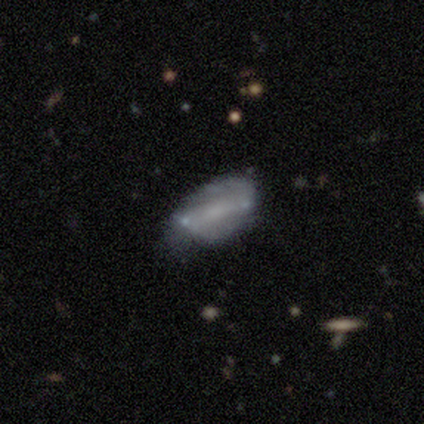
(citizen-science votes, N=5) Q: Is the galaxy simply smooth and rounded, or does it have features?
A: featured or disk — 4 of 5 (80%).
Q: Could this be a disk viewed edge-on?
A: no — 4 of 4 (100%).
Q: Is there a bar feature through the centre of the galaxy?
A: strong — 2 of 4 (50%, tied with weak).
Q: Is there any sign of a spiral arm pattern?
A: yes — 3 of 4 (75%).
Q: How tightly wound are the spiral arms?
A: tight — 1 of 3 (33%, tied with medium and loose).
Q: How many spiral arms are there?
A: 2 — 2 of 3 (67%).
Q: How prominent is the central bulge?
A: small — 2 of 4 (50%).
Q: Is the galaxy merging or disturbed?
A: minor disturbance — 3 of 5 (60%).